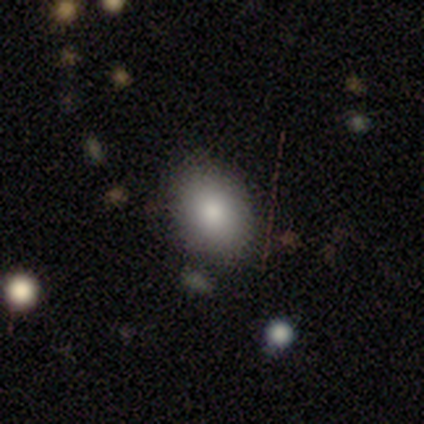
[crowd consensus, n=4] This appears to be a smooth galaxy with no disk features (100%) that is in between round and cigar-shaped (75%). Merging: none (75%).